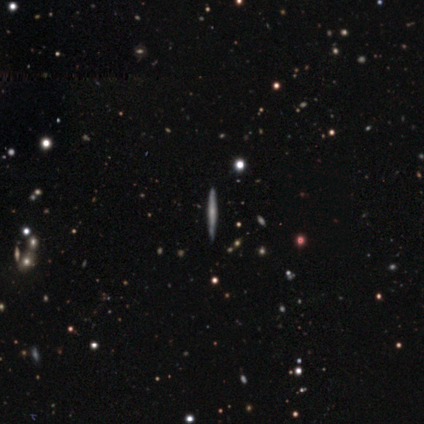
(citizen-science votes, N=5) smooth_or_featured: smooth (p=0.60) [alt: featured or disk p=0.40]
how_rounded: cigar-shaped (p=1.00)
merging: none (p=1.00)